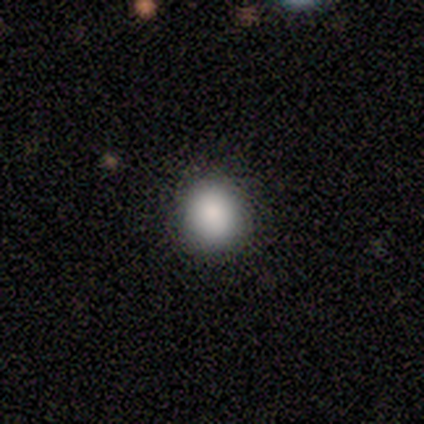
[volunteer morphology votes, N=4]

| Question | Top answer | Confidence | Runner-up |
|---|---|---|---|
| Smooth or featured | smooth | 100% | — |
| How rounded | round | 75% | in between (25%) |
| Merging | none | 100% | — |